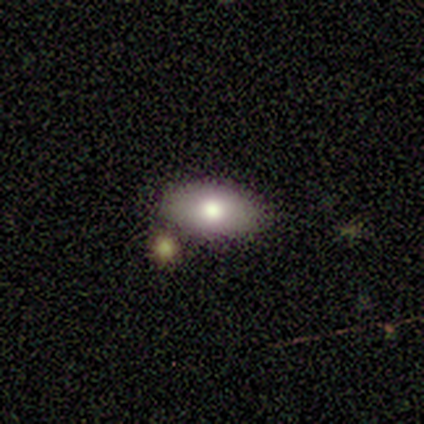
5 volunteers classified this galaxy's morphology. A smooth galaxy with no disk features (80%) that is in between round and cigar-shaped (100%).

Vote fractions:
- Smooth or featured? smooth: 80% / featured or disk: 20% / star or artifact: 0%
- How rounded? in between: 100% / round: 0% / cigar-shaped: 0%
- Merging? none: 100% / minor disturbance: 0% / major disturbance: 0% / merger: 0%